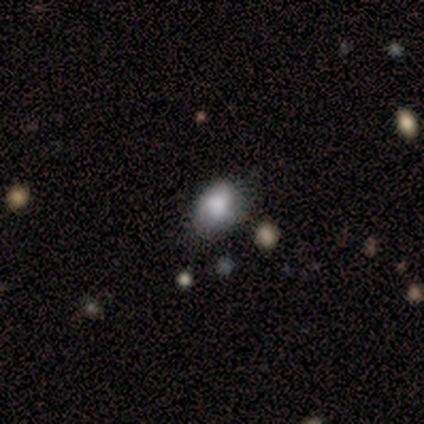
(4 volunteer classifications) smooth-or-featured: smooth: 50% (tied) | featured or disk: 50% (tied) | star or artifact: 0%
  how-rounded: round: 50% (tied) | in between: 50% (tied) | cigar-shaped: 0%
  merging: minor disturbance: 75% | none: 25% | major disturbance: 0% | merger: 0%